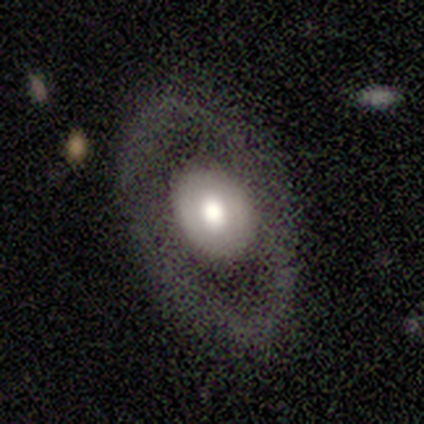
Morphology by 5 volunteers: Smooth or featured: smooth — 60% (featured or disk — 40%)
How rounded: in between — 67% (round — 33%)
Merging: none — 80% (minor disturbance — 20%)